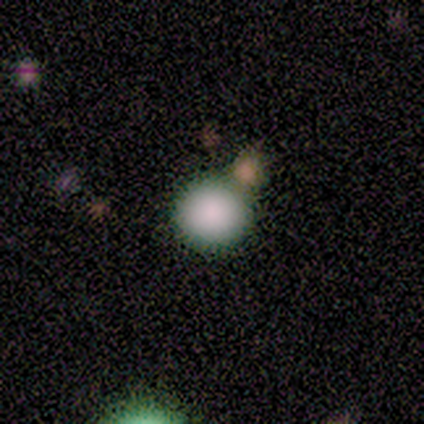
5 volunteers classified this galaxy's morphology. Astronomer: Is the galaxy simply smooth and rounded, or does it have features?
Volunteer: smooth — 100%.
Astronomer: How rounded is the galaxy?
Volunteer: round — 100%.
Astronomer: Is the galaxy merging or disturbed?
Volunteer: none — 80%.